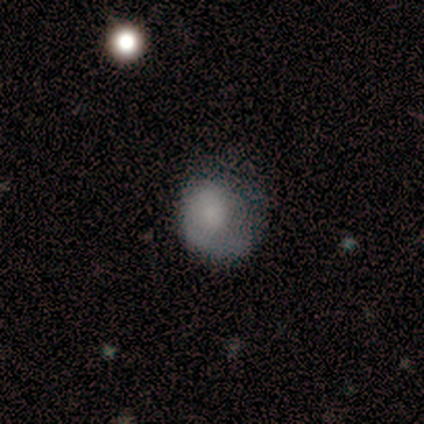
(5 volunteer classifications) A smooth galaxy with no disk features (60%) that is in between round and cigar-shaped (67%).

Vote fractions:
- Smooth or featured? smooth: 60% / featured or disk: 20% / star or artifact: 20%
- How rounded? in between: 67% / round: 33% / cigar-shaped: 0%
- Merging? none: 50% (tied) / major disturbance: 50% (tied) / minor disturbance: 0% / merger: 0%